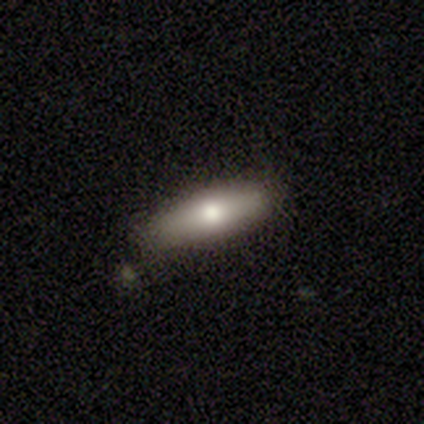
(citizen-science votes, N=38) This appears to be a smooth galaxy with no disk features (79%) that is cigar-shaped (53%). Merging: none (89%).